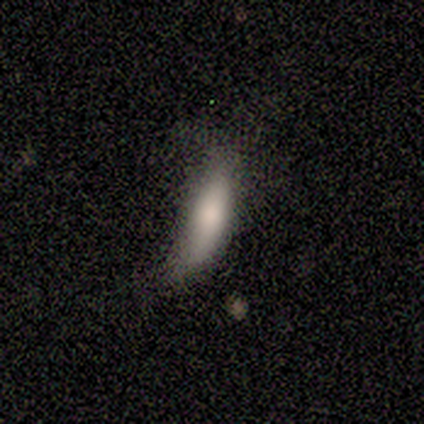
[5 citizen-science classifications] A smooth galaxy with no disk features (60%) that is cigar-shaped (67%). Merging: none (50%).